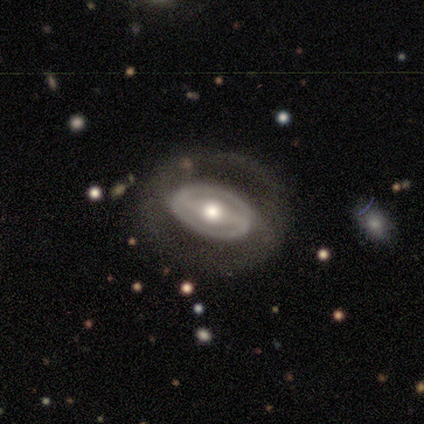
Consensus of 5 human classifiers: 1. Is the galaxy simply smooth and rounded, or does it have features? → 60% featured or disk, 40% smooth, 0% star or artifact.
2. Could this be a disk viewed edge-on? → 100% no, 0% yes.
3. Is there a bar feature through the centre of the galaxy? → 33% strong (tied), 33% weak (tied), 33% no (tied).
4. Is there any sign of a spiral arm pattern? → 100% yes, 0% no.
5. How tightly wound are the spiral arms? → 67% medium, 33% tight, 0% loose.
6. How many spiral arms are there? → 100% 2, 0% 1, 0% 3, 0% 4, 0% more than 4, 0% can't tell.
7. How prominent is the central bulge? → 100% moderate, 0% dominant, 0% large, 0% small, 0% none.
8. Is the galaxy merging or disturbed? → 80% none, 20% minor disturbance, 0% major disturbance, 0% merger.